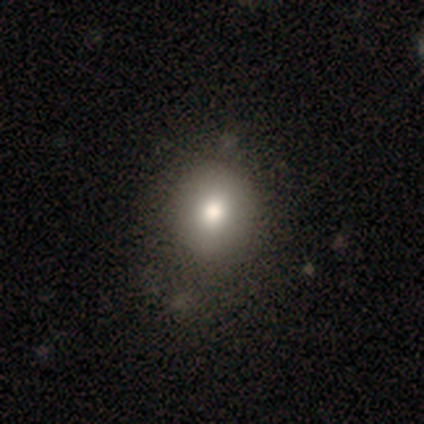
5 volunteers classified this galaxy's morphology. This is likely a smooth galaxy (60%). How rounded: likely round (67%). Merging: likely none (60%).